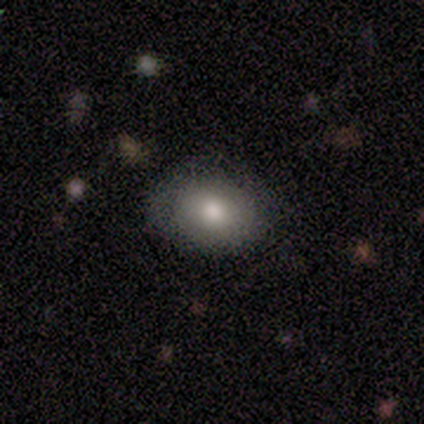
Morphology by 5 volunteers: Overall: smooth (80%). How rounded: in between (100%). Merging: none (100%).